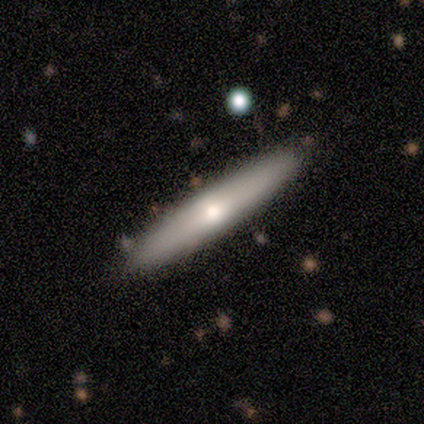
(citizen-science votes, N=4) Q: Smooth or featured?
A: smooth (100%)
Q: How rounded?
A: cigar-shaped (100%)
Q: Merging?
A: none (100%)